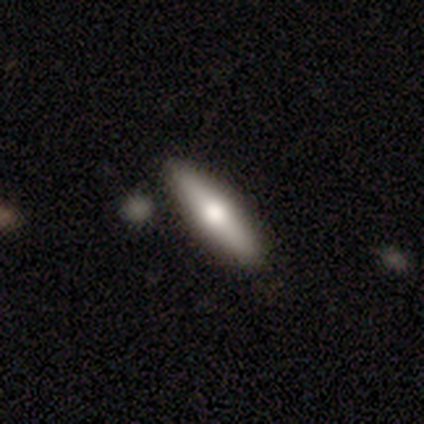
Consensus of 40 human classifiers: Q: Smooth or featured?
A: smooth (52%); runner-up: featured or disk (45%)
Q: How rounded?
A: cigar-shaped (76%); runner-up: in between (19%)
Q: Merging?
A: none (79%); runner-up: minor disturbance (13%)